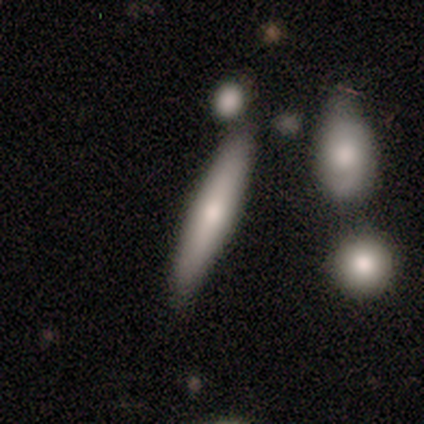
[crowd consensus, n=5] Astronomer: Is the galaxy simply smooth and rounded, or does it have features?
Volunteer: smooth — 40%, tied with star or artifact at 40%.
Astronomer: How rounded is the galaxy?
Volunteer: cigar-shaped — 100%.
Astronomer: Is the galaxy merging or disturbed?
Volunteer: none — 33%, tied with minor disturbance and merger at 33%.